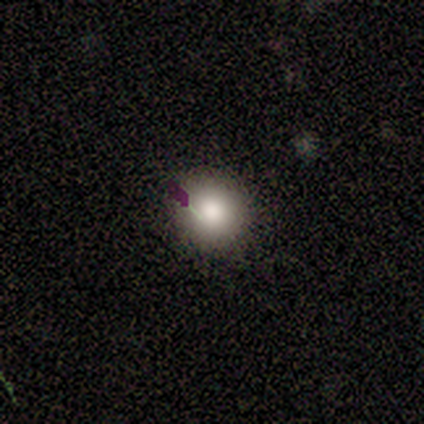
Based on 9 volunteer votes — Smooth or featured? smooth (67%)
How rounded? round (83%)
Merging? none (75%)